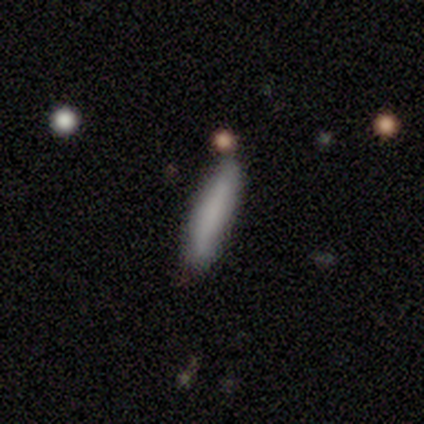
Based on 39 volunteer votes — Smooth or featured?
  - smooth: 85% *
  - featured or disk: 13%
  - star or artifact: 3%
How rounded?
  - cigar-shaped: 91% *
  - in between: 9%
  - round: 0%
Merging?
  - none: 87% *
  - minor disturbance: 8%
  - merger: 5%
  - major disturbance: 0%